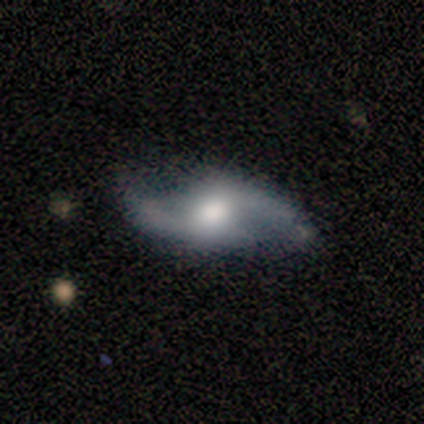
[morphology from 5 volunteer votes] A featured or disk galaxy (80%) with no bar (75%), 2 (100%) medium (50%, tied with loose) spiral arms (100%) and a large central bulge (50%, tied with moderate). Merging: none (100%).